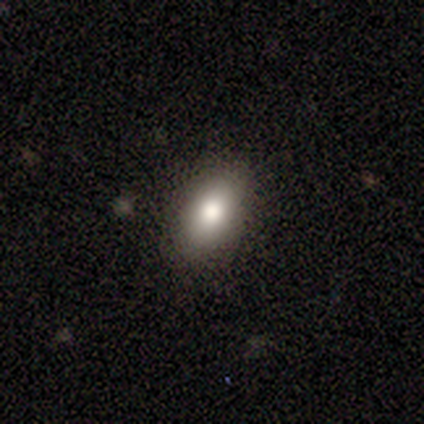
smooth 100%, featured or disk 0%, star or artifact 0%. Down the decision tree: how rounded — in between (60%); merging — none (80%).